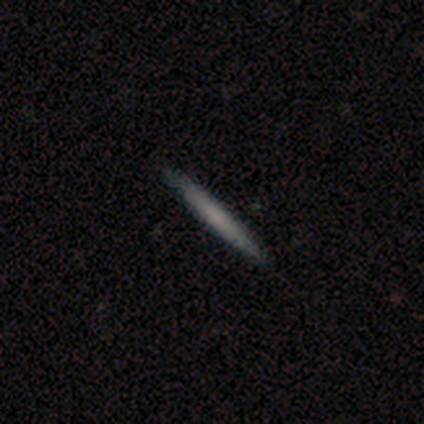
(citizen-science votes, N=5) This is clearly a smooth galaxy (80%). How rounded: clearly cigar-shaped (100%). Merging: clearly none (100%).